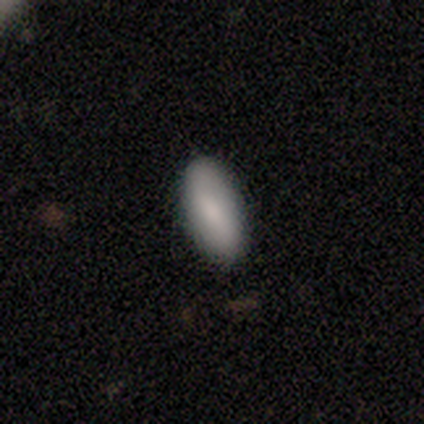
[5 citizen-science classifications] smooth-or-featured: smooth: 80% | featured or disk: 20% | star or artifact: 0%
  how-rounded: in between: 100% | round: 0% | cigar-shaped: 0%
  merging: none: 60% | major disturbance: 40% | minor disturbance: 0% | merger: 0%